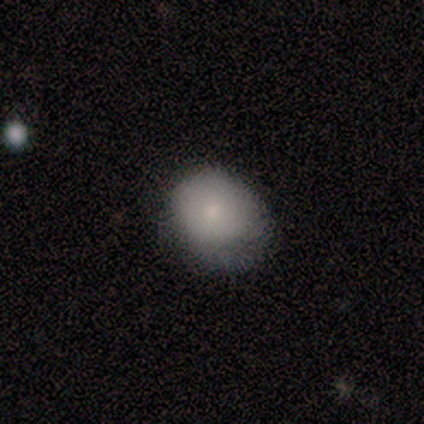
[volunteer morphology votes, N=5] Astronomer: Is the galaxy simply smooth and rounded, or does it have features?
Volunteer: smooth — 100%.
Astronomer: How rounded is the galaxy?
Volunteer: in between — 100%.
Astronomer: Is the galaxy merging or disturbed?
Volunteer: minor disturbance — 80%.